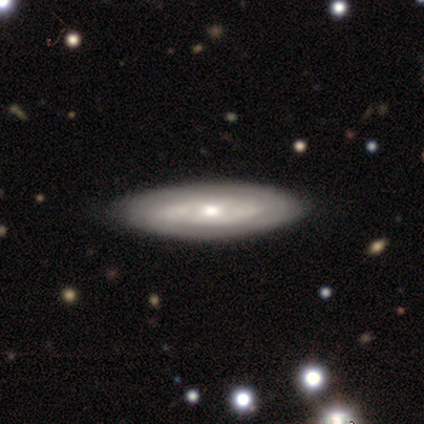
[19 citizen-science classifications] This appears to be a featured or disk galaxy (74%) with no bar (78%), tight (71%) spiral arms (78%) and a moderate central bulge (44%, tied with small). Merging: none (37%).